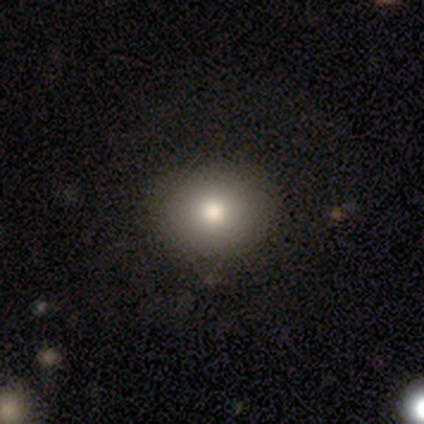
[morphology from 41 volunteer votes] A smooth galaxy with no disk features (85%) that is round (74%).

Vote fractions:
- Smooth or featured? smooth: 85% / featured or disk: 12% / star or artifact: 2%
- How rounded? round: 74% / in between: 26% / cigar-shaped: 0%
- Merging? none: 65% / minor disturbance: 10% / merger: 2% / major disturbance: 0%